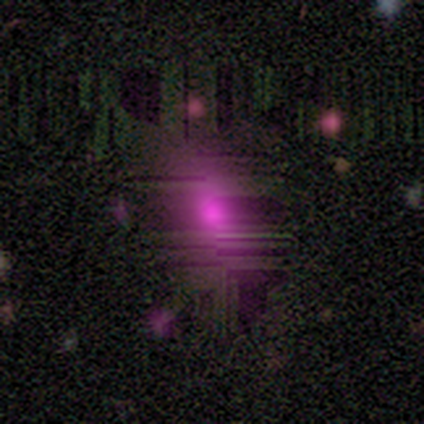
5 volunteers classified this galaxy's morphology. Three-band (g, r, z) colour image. It shows a star or artifact, not a galaxy (60%).